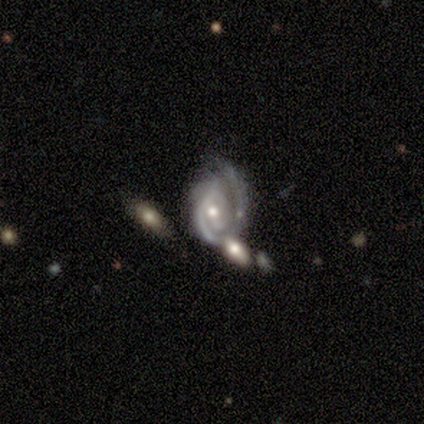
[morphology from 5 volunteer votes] Q: Smooth or featured?
A: featured or disk (100%)
Q: Edge-on disk?
A: no (100%)
Q: Bar?
A: no (100%)
Q: Spiral arms?
A: yes (100%)
Q: Spiral winding?
A: tight (100%)
Q: Spiral arm count?
A: 1 (40%); tied with: 2 (40%)
Q: Bulge size?
A: moderate (80%); runner-up: small (20%)
Q: Merging?
A: none (40%); runner-up: minor disturbance (20%)